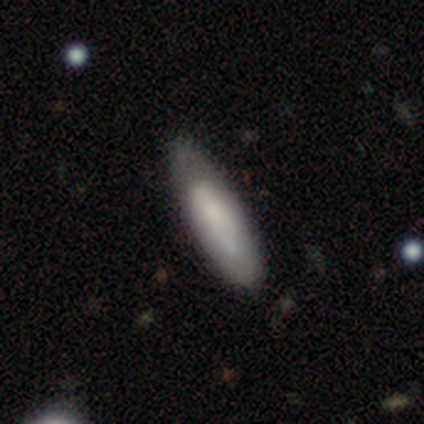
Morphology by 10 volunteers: Overall: smooth (80%). How rounded: in between (62%; cigar-shaped 38%). Merging: none (60%; minor disturbance 30%).